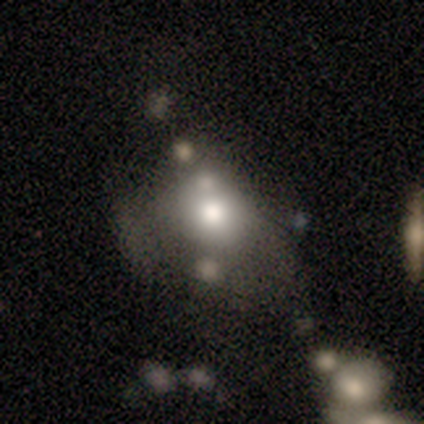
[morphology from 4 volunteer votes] smooth 100%, featured or disk 0%, star or artifact 0%. Down the decision tree: how rounded — round (50%, tied with in between); merging — none (75%).